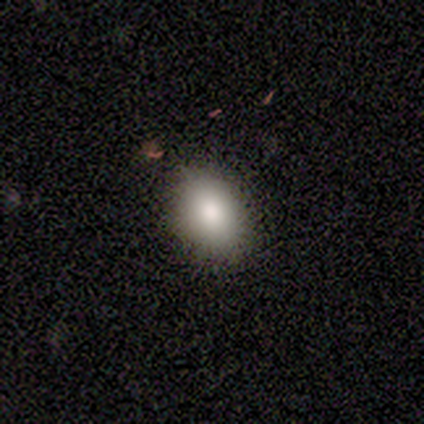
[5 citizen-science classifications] Smooth or featured? smooth (60%)
How rounded? in between (67%)
Merging? none (100%)